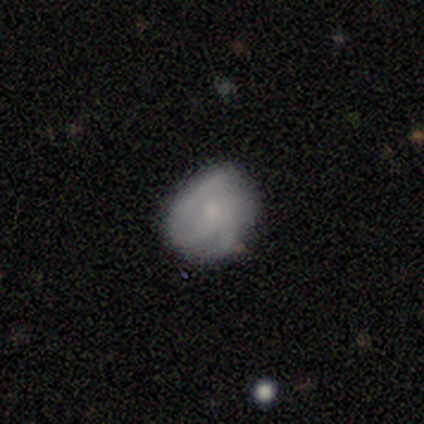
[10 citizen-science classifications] smooth_or_featured: smooth (p=0.50) [tied with: featured or disk p=0.50]
how_rounded: in between (p=0.60) [alt: round p=0.40]
merging: none (p=0.70) [alt: minor disturbance p=0.20]